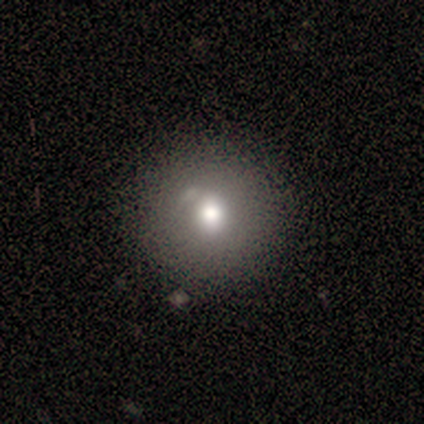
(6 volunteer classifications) Smooth or featured?
  - smooth: 67% *
  - featured or disk: 17%
  - star or artifact: 17%
How rounded?
  - round: 100% *
  - in between: 0%
  - cigar-shaped: 0%
Merging?
  - none: 80% *
  - minor disturbance: 20%
  - major disturbance: 0%
  - merger: 0%